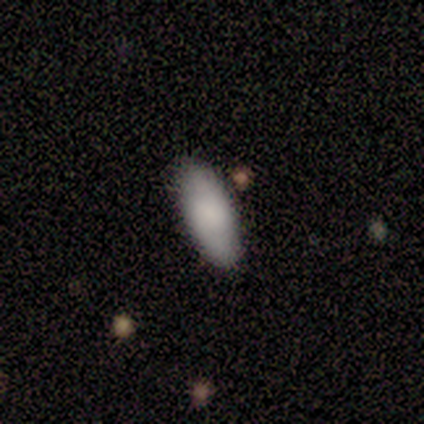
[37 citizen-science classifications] A smooth galaxy with no disk features (86%) that is in between round and cigar-shaped (88%). Merging: none (92%).